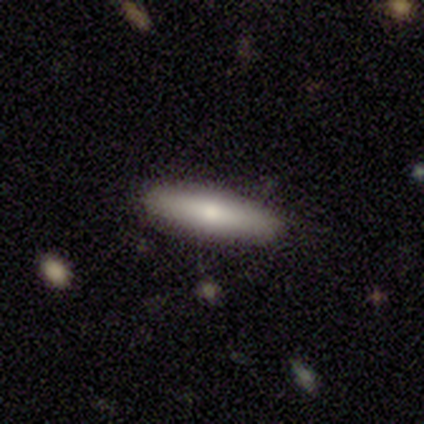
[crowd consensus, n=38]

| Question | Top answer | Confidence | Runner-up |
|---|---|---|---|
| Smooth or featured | smooth | 74% | featured or disk (21%) |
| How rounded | cigar-shaped | 79% | in between (21%) |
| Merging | none | 83% | minor disturbance (17%) |